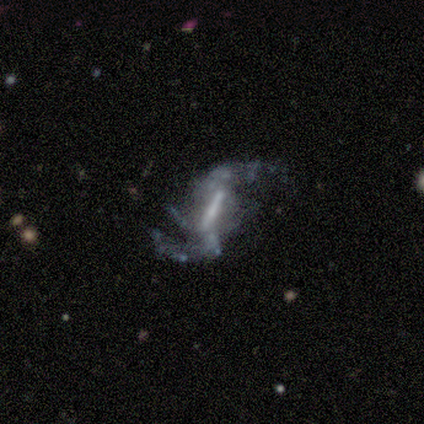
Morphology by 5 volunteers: Q: Smooth or featured?
A: featured or disk (100%)
Q: Edge-on disk?
A: no (100%)
Q: Bar?
A: strong (80%); runner-up: weak (20%)
Q: Spiral arms?
A: yes (60%); runner-up: no (40%)
Q: Spiral winding?
A: loose (67%); runner-up: medium (33%)
Q: Spiral arm count?
A: can't tell (67%); runner-up: 4 (33%)
Q: Bulge size?
A: moderate (40%); tied with: small (40%)
Q: Merging?
A: none (40%); tied with: major disturbance (40%)